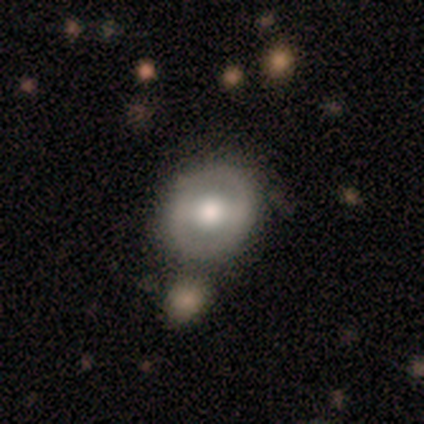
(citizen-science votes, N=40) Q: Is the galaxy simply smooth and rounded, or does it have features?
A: featured or disk — 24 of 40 (60%).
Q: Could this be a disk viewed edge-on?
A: no — 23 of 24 (96%).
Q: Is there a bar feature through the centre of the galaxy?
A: weak — 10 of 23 (43%).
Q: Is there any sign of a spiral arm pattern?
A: no — 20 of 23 (87%).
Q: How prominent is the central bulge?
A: moderate — 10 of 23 (43%).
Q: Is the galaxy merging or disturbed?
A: none — 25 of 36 (69%).